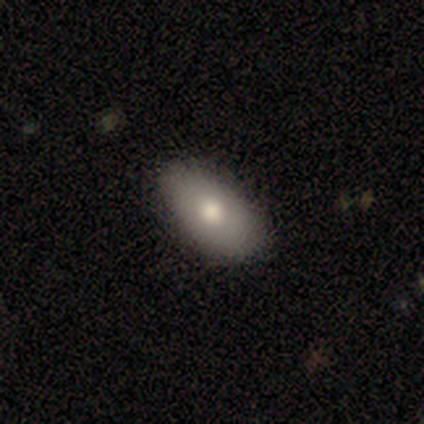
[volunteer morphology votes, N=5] type=smooth (100%); roundness=in between (100%); merging=none (80%).